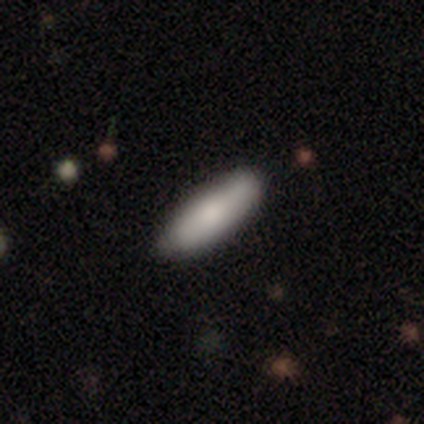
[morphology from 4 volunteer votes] This is possibly a smooth galaxy (50%, tied with featured or disk). How rounded: possibly in between (50%, tied with cigar-shaped). Merging: clearly none (100%).